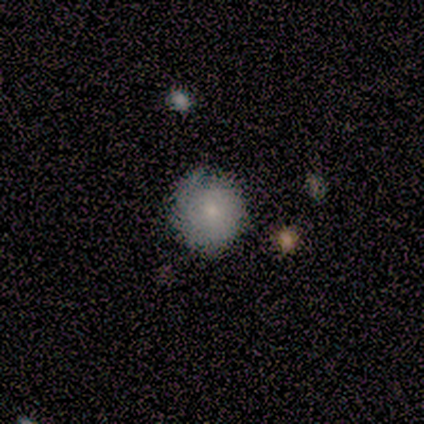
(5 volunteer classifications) Smooth or featured? smooth (60%)
How rounded? round (100%)
Merging? none (100%)